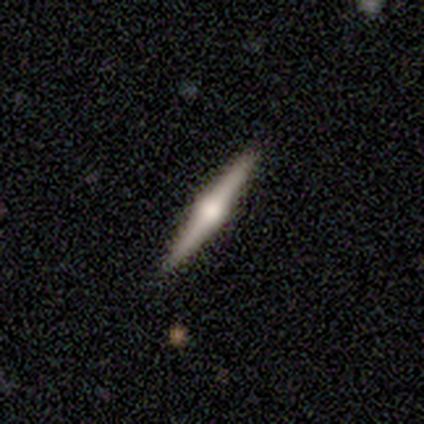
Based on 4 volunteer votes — This is possibly a smooth galaxy (50%, tied with featured or disk). How rounded: clearly cigar-shaped (100%). Merging: likely none (75%).